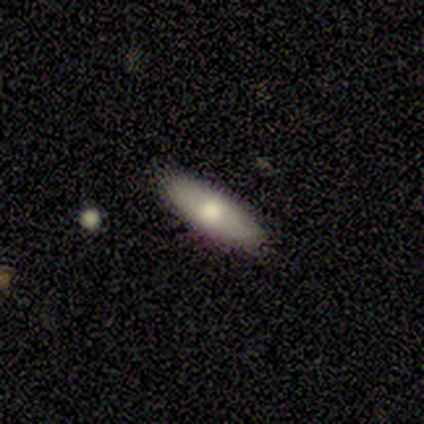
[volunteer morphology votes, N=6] A smooth galaxy with no disk features (50%) that is cigar-shaped (67%).

Vote fractions:
- Smooth or featured? smooth: 50% / featured or disk: 33% / star or artifact: 17%
- How rounded? cigar-shaped: 67% / in between: 33% / round: 0%
- Merging? none: 100% / minor disturbance: 0% / major disturbance: 0% / merger: 0%